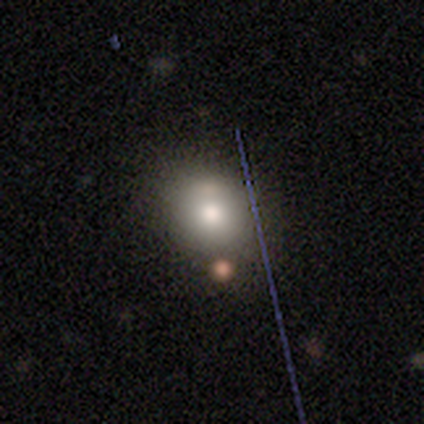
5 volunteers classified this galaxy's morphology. Smooth or featured? 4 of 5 (80%) said smooth. How rounded? 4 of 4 (100%) said round. Merging? 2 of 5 (40%, tied with minor disturbance) said none.